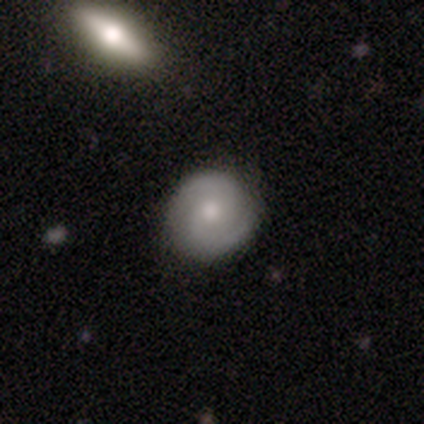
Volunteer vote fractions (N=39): This appears to be a featured or disk galaxy (64%) with no bar (74%), 2 (86%) tight (50%) spiral arms (96%) and a moderate central bulge (70%). Merging: none (87%).